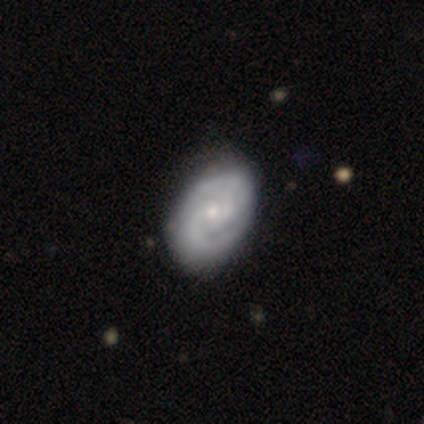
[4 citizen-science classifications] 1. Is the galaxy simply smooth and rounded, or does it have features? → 75% featured or disk, 25% star or artifact, 0% smooth.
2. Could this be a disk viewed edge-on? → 100% no, 0% yes.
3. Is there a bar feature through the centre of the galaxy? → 67% no, 33% weak, 0% strong.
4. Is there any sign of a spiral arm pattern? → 100% yes, 0% no.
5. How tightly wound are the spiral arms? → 100% tight, 0% medium, 0% loose.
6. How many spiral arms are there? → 100% 2, 0% 1, 0% 3, 0% 4, 0% more than 4, 0% can't tell.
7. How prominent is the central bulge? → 67% small, 33% moderate, 0% dominant, 0% large, 0% none.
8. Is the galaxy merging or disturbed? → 100% none, 0% minor disturbance, 0% major disturbance, 0% merger.